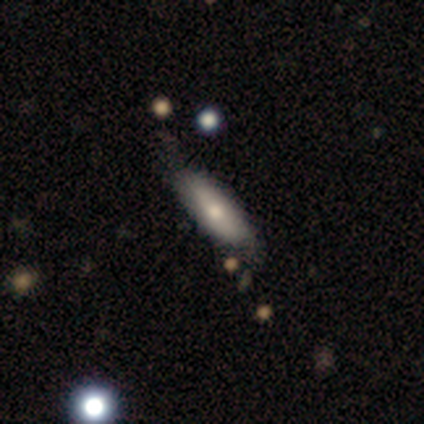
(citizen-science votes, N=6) Smooth or featured? 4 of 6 (67%) said smooth. How rounded? 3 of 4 (75%) said cigar-shaped. Merging? 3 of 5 (60%) said none.